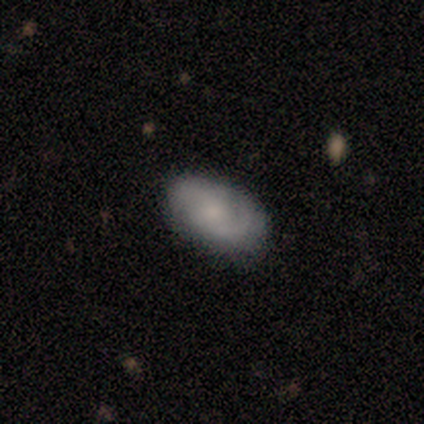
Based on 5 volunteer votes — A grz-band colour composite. It shows a featured or disk galaxy (80%) with a weak bar (75%), 2 (100%) medium (100%) spiral arms (75%) and a large central bulge (50%). Merging: none (80%).